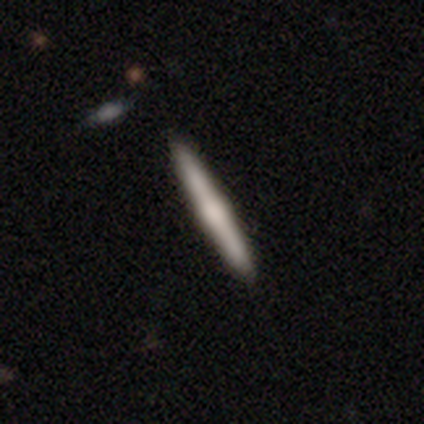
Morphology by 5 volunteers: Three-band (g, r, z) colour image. It shows a featured or disk galaxy (80%) viewed edge-on (75%) with a rounded central bulge (100%). Merging: none (80%).